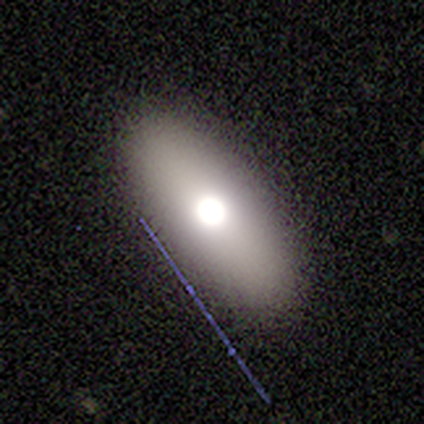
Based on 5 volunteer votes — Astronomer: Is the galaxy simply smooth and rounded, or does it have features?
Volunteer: smooth — 80%.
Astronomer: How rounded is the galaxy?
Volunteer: in between — 75%.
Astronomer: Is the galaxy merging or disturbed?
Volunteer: none — 80%.